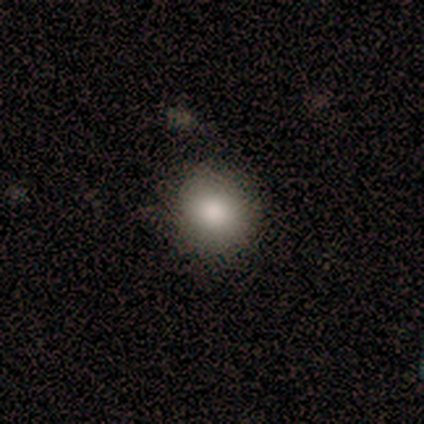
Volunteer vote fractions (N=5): Smooth or featured: smooth — 100%
How rounded: round — 100%
Merging: none — 100%